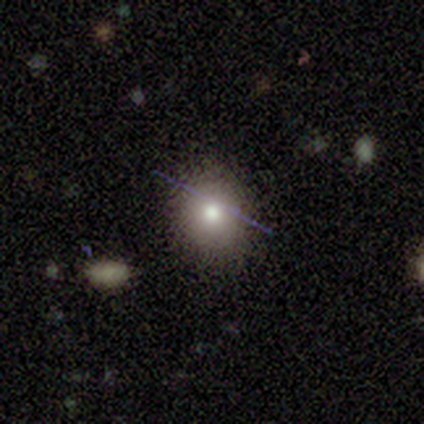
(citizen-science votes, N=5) smooth 100%, featured or disk 0%, star or artifact 0%. Down the decision tree: how rounded — round (60%); merging — none (100%).